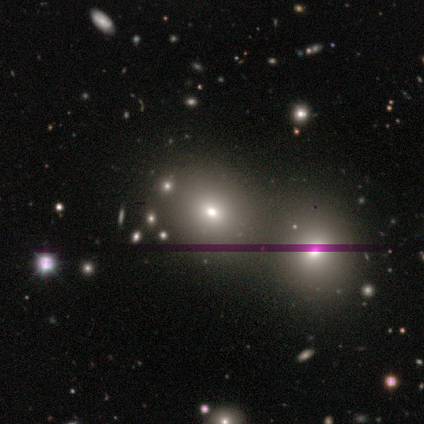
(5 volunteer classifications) Smooth or featured? 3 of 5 (60%) said smooth. How rounded? 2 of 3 (67%) said round. Merging? 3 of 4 (75%) said none.